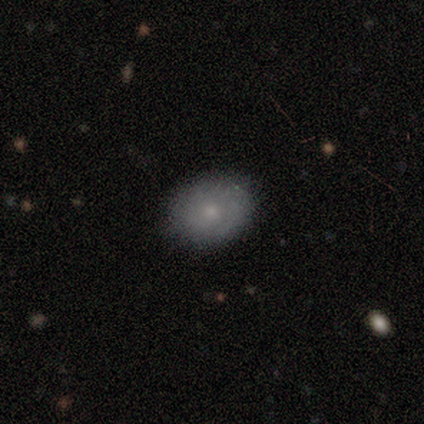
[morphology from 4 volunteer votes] Volunteers were most divided on "how rounded": round: 67%, in between: 33%, cigar-shaped: 0%. More confident: merging — none (100%); smooth or featured — smooth (75%).